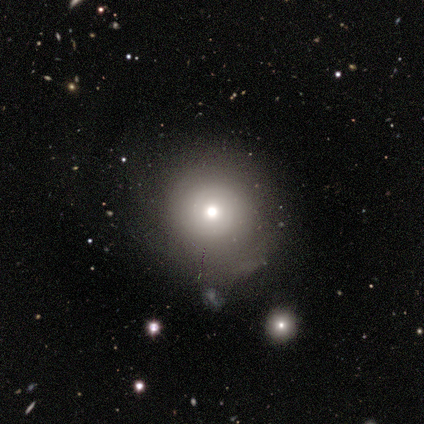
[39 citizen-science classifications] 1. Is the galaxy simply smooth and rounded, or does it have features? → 59% smooth, 38% featured or disk, 3% star or artifact.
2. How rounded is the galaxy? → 96% round, 4% in between, 0% cigar-shaped.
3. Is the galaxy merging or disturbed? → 68% none, 21% minor disturbance, 5% major disturbance, 5% merger.